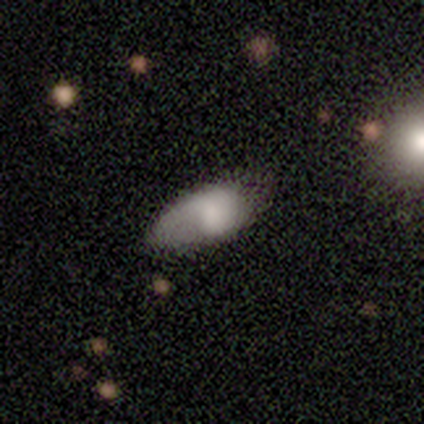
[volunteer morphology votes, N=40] This appears to be a featured or disk galaxy (50%) with no bar (76%), 1 (67%) loose (44%) spiral arms (53%) and no central bulge (41%). Merging: none (44%).